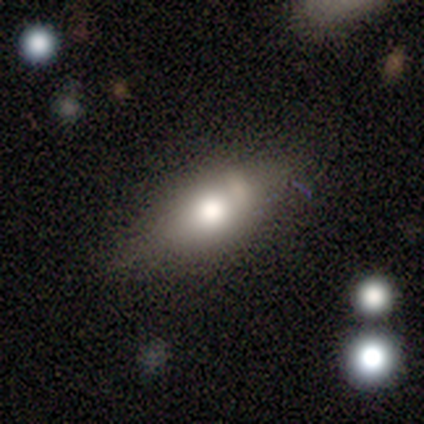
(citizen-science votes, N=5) Overall: smooth (100%). How rounded: in between (100%). Merging: none (80%).